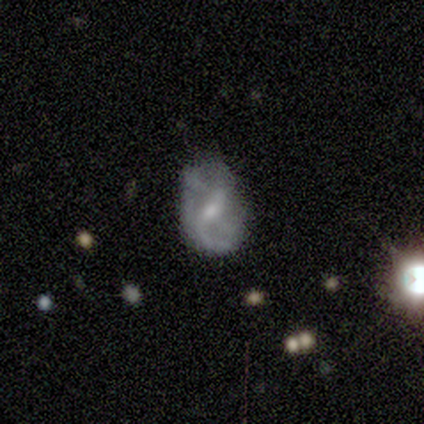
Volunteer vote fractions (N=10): Overall: featured or disk (100%). Edge-on disk: no (100%). Bar: weak (70%; no 30%). Spiral arms: yes (90%). Spiral arm count: 2 (44%; can't tell 33%). Spiral winding: medium (56%; loose 44%). Bulge size: small (80%). Merging: none (60%; major disturbance 30%).